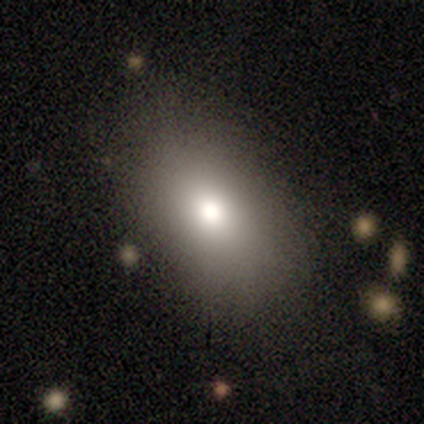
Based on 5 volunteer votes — Volunteers were most divided on "merging": none: 75%, minor disturbance: 25%, major disturbance: 0%, merger: 0%. More confident: how rounded — in between (100%); smooth or featured — smooth (80%).